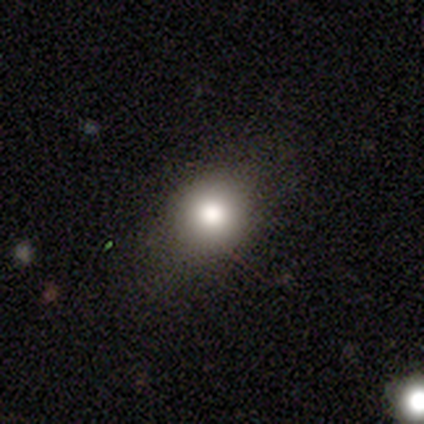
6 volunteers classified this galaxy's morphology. A smooth galaxy with no disk features (100%) that is round (67%). Merging: none (83%).